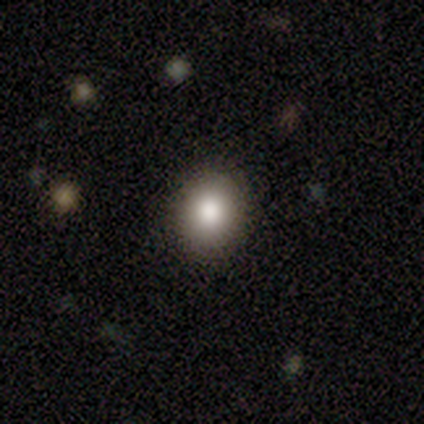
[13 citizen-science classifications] Q: Smooth or featured?
A: smooth (92%); runner-up: star or artifact (8%)
Q: How rounded?
A: round (67%); runner-up: in between (33%)
Q: Merging?
A: none (83%); runner-up: minor disturbance (17%)